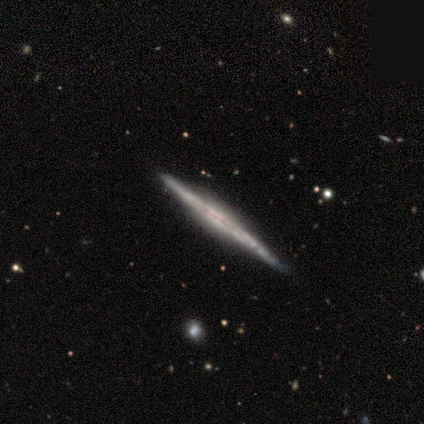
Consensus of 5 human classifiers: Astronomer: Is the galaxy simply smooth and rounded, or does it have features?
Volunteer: featured or disk — 100%.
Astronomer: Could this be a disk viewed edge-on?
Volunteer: yes — 100%.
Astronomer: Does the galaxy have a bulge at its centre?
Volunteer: none — 80%.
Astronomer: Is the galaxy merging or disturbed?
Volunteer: none — 100%.